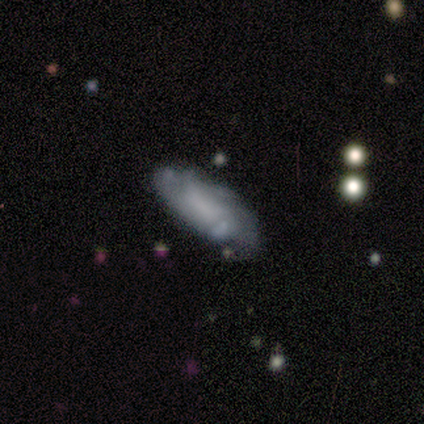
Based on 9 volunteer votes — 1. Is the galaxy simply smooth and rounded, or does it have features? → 67% featured or disk, 33% smooth, 0% star or artifact.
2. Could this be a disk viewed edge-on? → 100% no, 0% yes.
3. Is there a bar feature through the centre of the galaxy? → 67% no, 33% weak, 0% strong.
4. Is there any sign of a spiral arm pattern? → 83% yes, 17% no.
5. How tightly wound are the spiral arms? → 60% tight, 40% medium, 0% loose.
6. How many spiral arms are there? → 40% can't tell, 20% 1, 20% 2, 20% more than 4, 0% 3, 0% 4.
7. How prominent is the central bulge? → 67% none, 17% large, 17% moderate, 0% dominant, 0% small.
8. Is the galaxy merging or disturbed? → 56% none, 22% minor disturbance, 22% major disturbance, 0% merger.